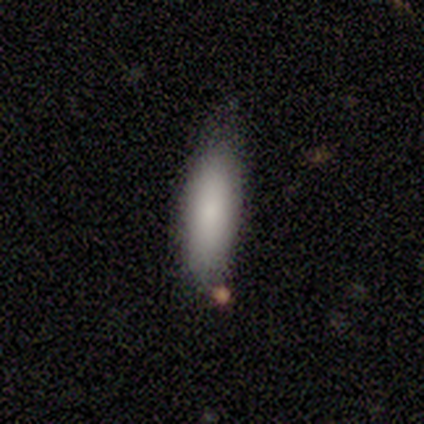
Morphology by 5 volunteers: A smooth galaxy with no disk features (100%) that is in between round and cigar-shaped (60%). Merging: none (60%).